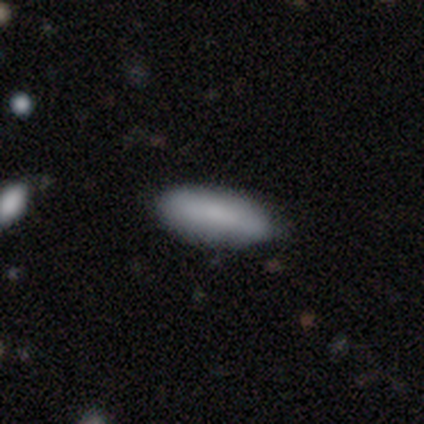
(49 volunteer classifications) A smooth galaxy with no disk features (80%) that is in between round and cigar-shaped (72%). Merging: none (79%).